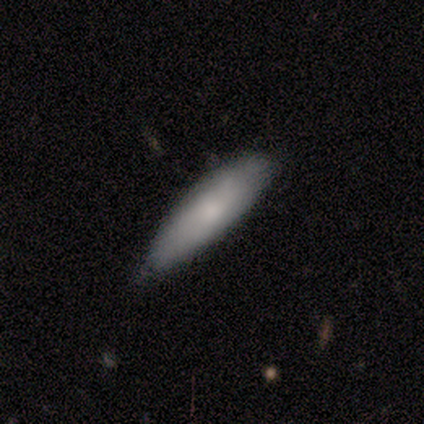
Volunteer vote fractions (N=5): smooth 60%, featured or disk 40%, star or artifact 0%. Down the decision tree: how rounded — cigar-shaped (67%); merging — none (60%).